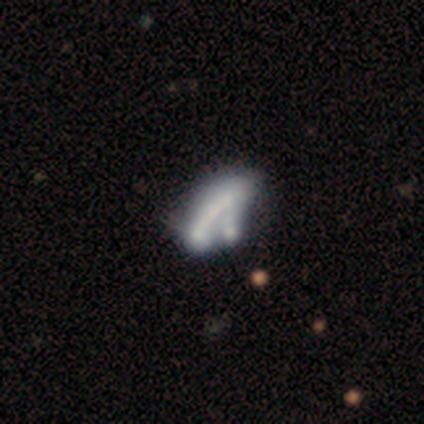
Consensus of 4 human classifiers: This is possibly a star or artifact rather than a galaxy (50%).